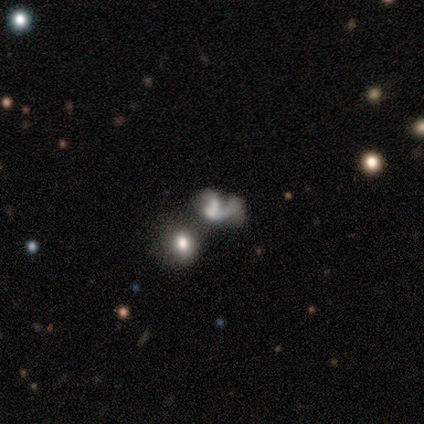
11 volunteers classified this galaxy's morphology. Overall: featured or disk (73%). Edge-on disk: no (100%). Bar: no (88%). Spiral arms: yes (75%). Spiral arm count: 1 (83%). Spiral winding: loose (67%; medium 33%). Bulge size: small (62%; none 25%). Merging: merger (40%; none 30%).